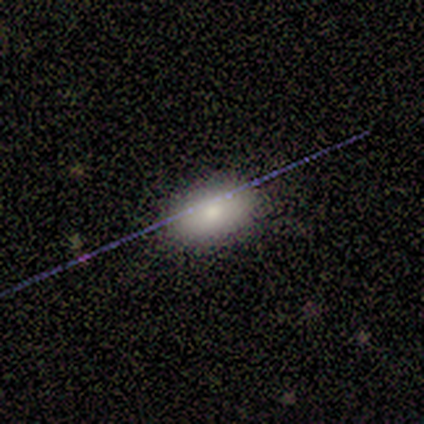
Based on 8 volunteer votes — Morphology: type=smooth (75%); roundness=in between (100%); merging=none (83%).